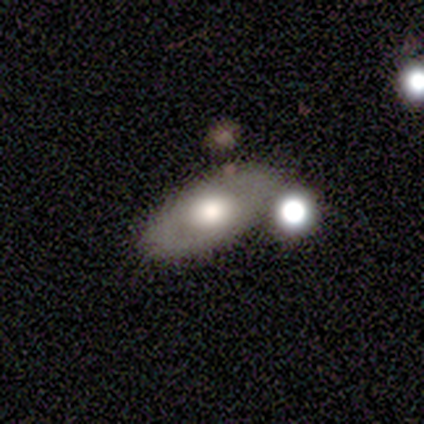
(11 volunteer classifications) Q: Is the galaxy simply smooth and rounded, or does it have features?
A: featured or disk — 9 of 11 (82%).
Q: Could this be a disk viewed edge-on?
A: yes — 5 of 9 (56%).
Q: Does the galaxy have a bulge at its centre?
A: rounded — 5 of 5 (100%).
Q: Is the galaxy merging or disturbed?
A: none — 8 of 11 (73%).